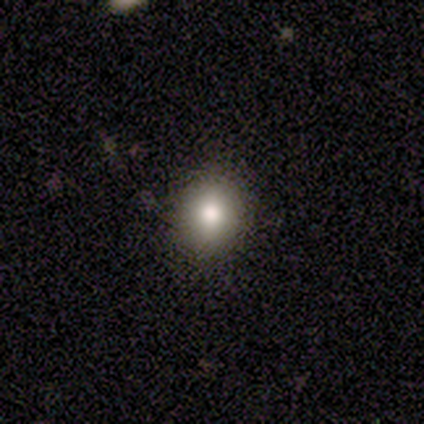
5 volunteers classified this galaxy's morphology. A smooth galaxy with no disk features (80%) that is round (100%).

Vote fractions:
- Smooth or featured? smooth: 80% / star or artifact: 20% / featured or disk: 0%
- How rounded? round: 100% / in between: 0% / cigar-shaped: 0%
- Merging? none: 75% / minor disturbance: 25% / major disturbance: 0% / merger: 0%